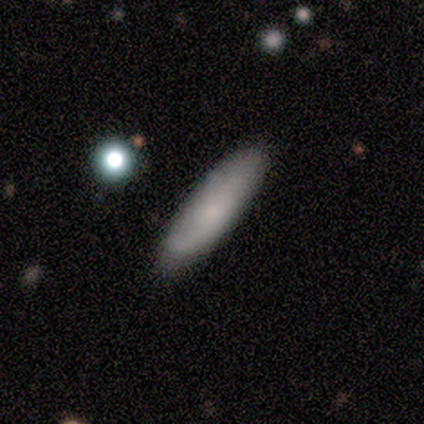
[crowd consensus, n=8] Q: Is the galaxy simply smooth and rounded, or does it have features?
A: smooth — 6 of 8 (75%).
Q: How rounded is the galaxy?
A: cigar-shaped — 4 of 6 (67%).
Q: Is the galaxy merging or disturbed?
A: none — 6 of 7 (86%).